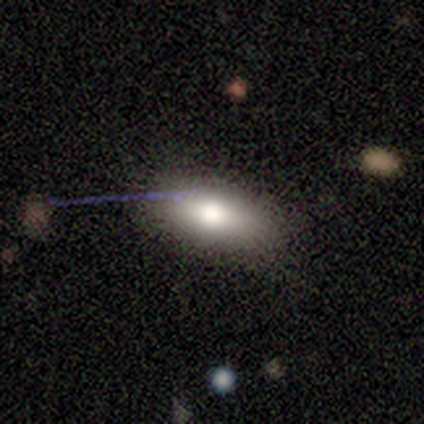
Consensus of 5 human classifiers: Q: Smooth or featured?
A: smooth (60%); runner-up: featured or disk (20%)
Q: How rounded?
A: in between (100%)
Q: Merging?
A: none (100%)